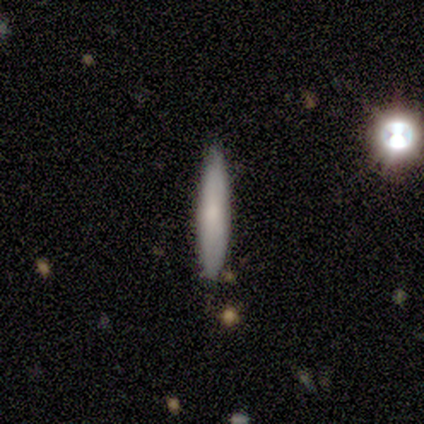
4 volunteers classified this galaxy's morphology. Volunteers were most divided on "smooth or featured": smooth: 75%, featured or disk: 25%, star or artifact: 0%. More confident: how rounded — cigar-shaped (100%); merging — none (100%).